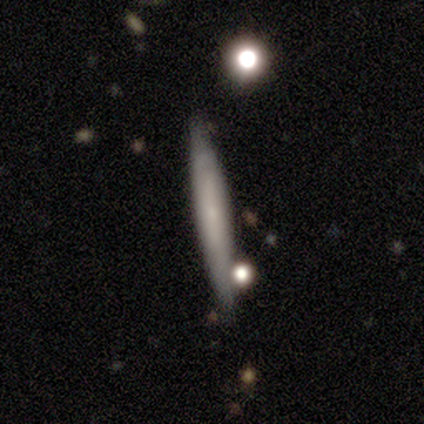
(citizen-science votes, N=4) This appears to be a smooth galaxy with no disk features (100%) that is cigar-shaped (100%). Merging: none (75%).